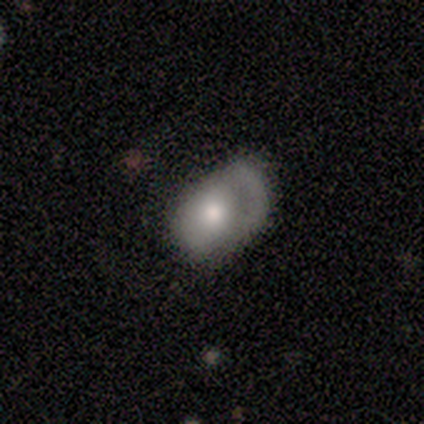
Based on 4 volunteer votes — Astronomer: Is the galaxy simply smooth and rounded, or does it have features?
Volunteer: smooth — 100%.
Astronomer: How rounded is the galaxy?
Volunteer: in between — 75%.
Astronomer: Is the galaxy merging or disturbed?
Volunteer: none — 75%.